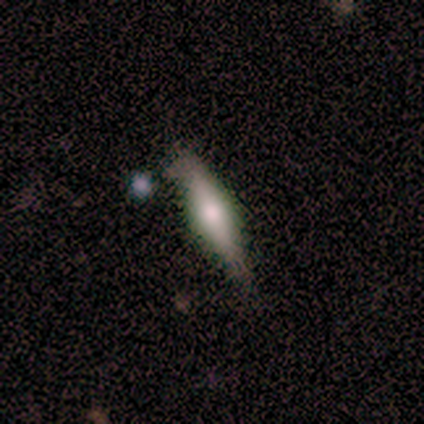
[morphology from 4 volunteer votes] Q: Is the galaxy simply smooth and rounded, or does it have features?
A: smooth — 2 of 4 (50%, tied with featured or disk).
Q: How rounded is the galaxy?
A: in between — 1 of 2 (50%, tied with cigar-shaped).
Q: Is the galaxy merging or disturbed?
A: minor disturbance — 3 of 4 (75%).